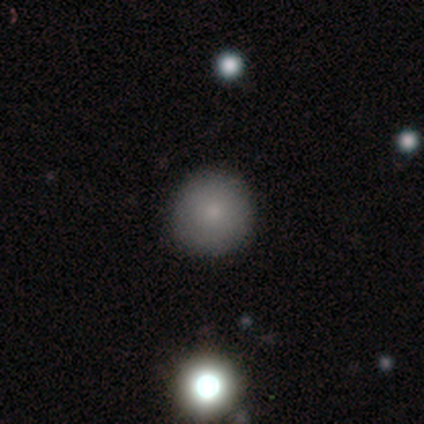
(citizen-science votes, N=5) Q: Smooth or featured?
A: smooth (80%); runner-up: star or artifact (20%)
Q: How rounded?
A: round (100%)
Q: Merging?
A: none (100%)